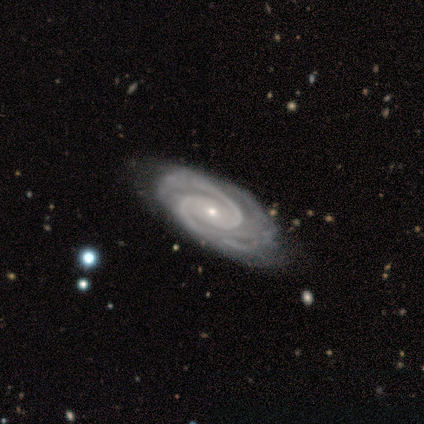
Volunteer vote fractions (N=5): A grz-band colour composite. It shows a featured or disk galaxy (80%) with a weak bar (50%, tied with no), 2 (75%) tight (50%) spiral arms (100%) and a small central bulge (75%). Merging: none (60%).